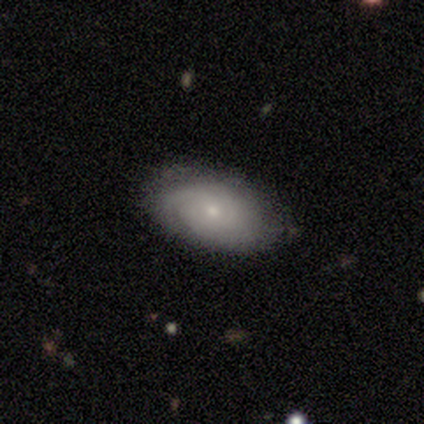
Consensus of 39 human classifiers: This is possibly a featured or disk galaxy (54%). It is clearly not viewed edge-on (95%). Bar: clearly no (80%). Spiral arm pattern: clearly yes (90%). Spiral arm count: likely can't tell (61%). Spiral winding: likely tight (78%). Central bulge: likely small (75%). Merging: clearly none (86%).